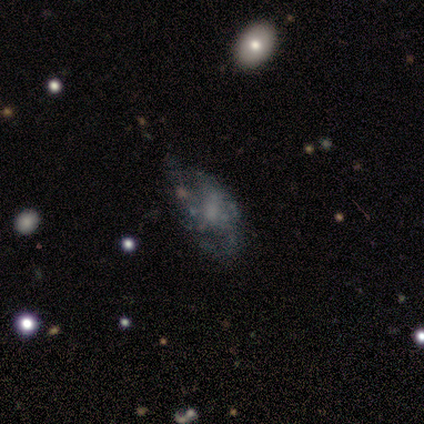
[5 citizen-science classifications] A featured or disk galaxy (40%, tied with star or artifact) with no bar (100%), 3 (100%) tight (100%) spiral arms (50%, tied with no) and a moderate central bulge (50%, tied with none). Merging: none (33%, tied with minor disturbance and major disturbance).